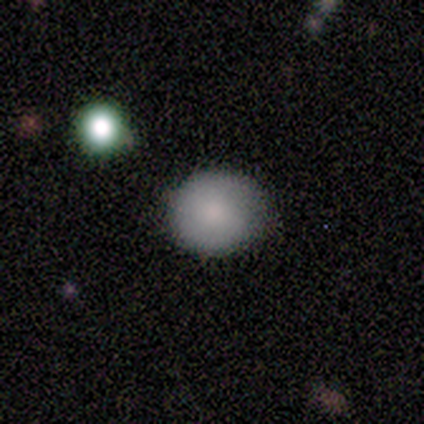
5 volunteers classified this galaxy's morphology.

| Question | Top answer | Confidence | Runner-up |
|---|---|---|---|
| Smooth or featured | smooth | 100% | — |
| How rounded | round | 100% | — |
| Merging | none | 80% | minor disturbance (20%) |